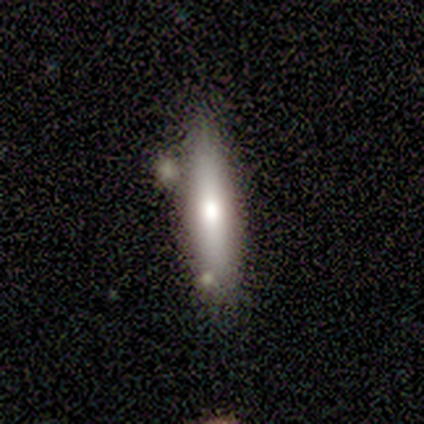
This appears to be a smooth galaxy with no disk features (60%) that is cigar-shaped (100%). Merging: minor disturbance (80%).